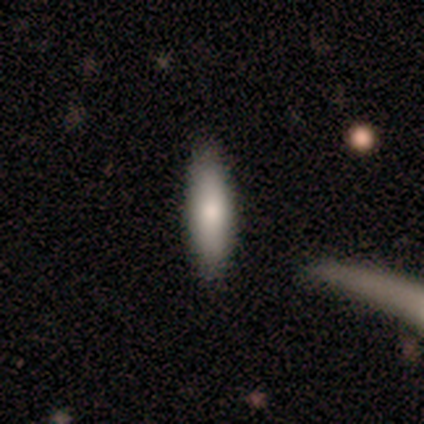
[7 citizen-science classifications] Smooth or featured? 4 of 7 (57%) said smooth. How rounded? 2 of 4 (50%) said cigar-shaped. Merging? 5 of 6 (83%) said none.